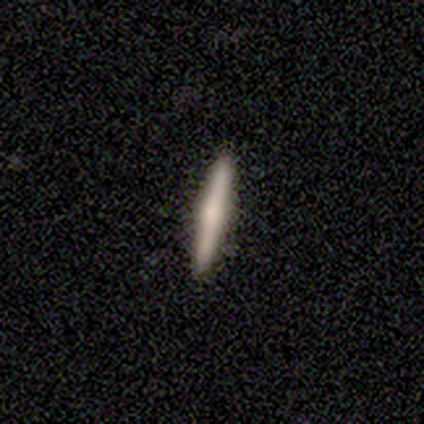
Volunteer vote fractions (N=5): Morphology: type=featured or disk (60%); edge-on=yes (100%); edge-on bulge=rounded (100%); merging=none (100%).